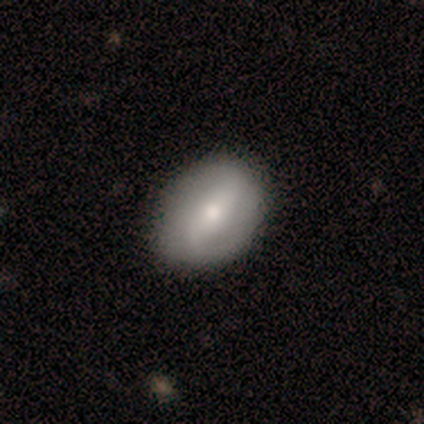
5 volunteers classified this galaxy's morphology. featured or disk 60%, smooth 40%, star or artifact 0%. Down the decision tree: edge-on disk — no (100%); bar — weak (100%); spiral arms — yes (100%); spiral arm count — 2 (100%); spiral winding — tight (33%, tied with medium and loose); bulge size — large (33%, tied with moderate and small); merging — none (60%).